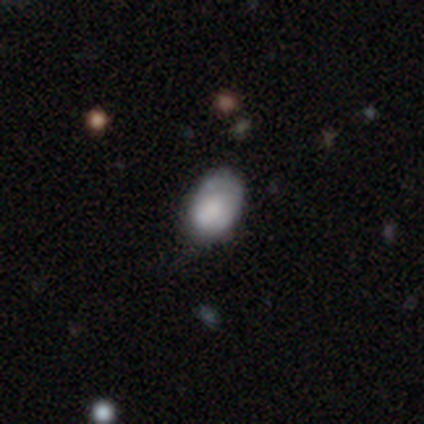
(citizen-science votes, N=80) Smooth or featured? smooth (76%)
How rounded? in between (92%)
Merging? none (26%)